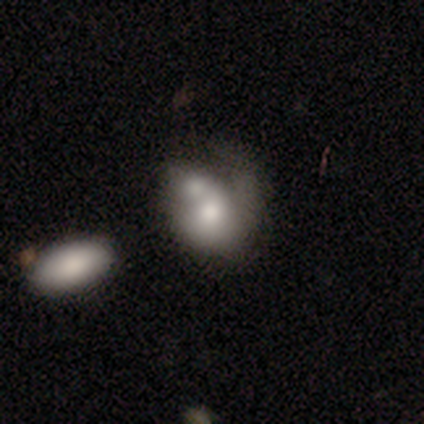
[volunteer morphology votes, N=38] Smooth or featured? smooth (55%)
How rounded? in between (76%)
Merging? merger (51%)